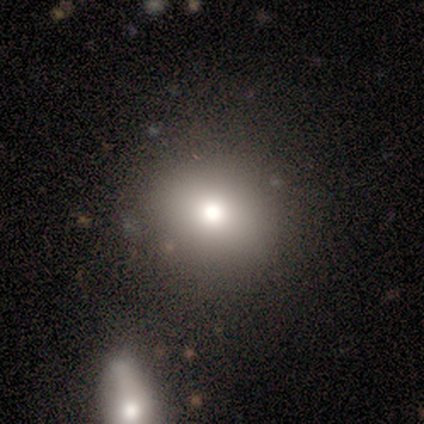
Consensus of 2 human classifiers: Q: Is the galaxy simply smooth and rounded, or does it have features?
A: smooth — 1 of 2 (50%, tied with star or artifact).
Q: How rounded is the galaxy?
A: round — 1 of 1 (100%).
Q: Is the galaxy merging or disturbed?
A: none — 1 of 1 (100%).